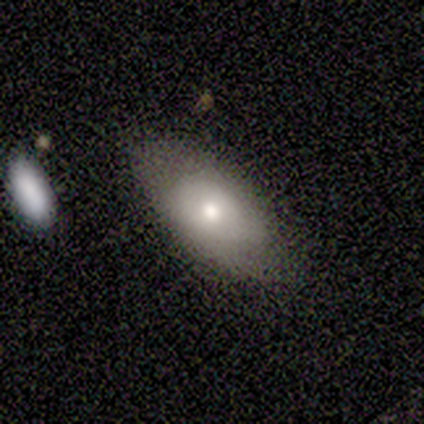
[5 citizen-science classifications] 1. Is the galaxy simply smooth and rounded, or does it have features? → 80% smooth, 20% featured or disk, 0% star or artifact.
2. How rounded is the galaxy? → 75% in between, 25% cigar-shaped, 0% round.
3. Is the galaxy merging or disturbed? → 60% none, 40% minor disturbance, 0% major disturbance, 0% merger.